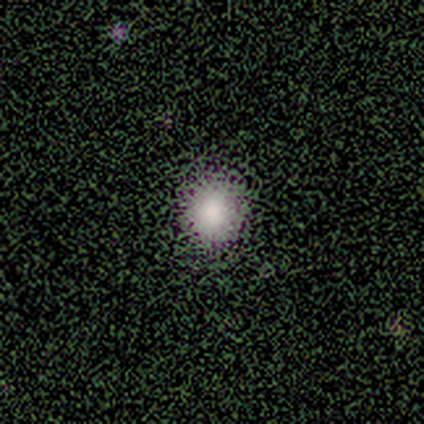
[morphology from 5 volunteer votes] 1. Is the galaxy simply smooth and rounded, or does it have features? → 60% smooth, 20% featured or disk, 20% star or artifact.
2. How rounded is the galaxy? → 67% in between, 33% round, 0% cigar-shaped.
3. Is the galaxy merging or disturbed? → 100% none, 0% minor disturbance, 0% major disturbance, 0% merger.